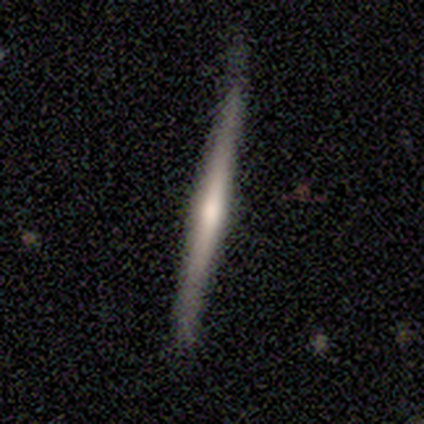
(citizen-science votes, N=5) Smooth or featured? 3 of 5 (60%) said featured or disk. Edge-on disk? 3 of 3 (100%) said yes. Edge-on bulge? 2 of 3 (67%) said rounded. Merging? 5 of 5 (100%) said none.